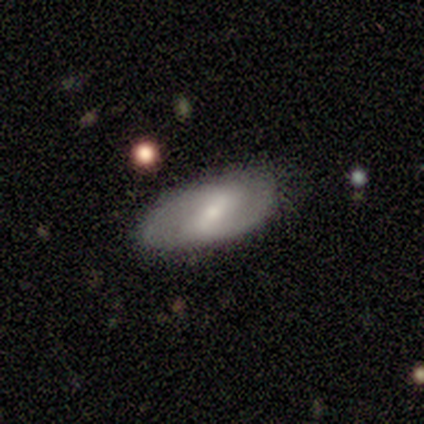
Volunteers were most divided on "spiral arms" (2-way tie): yes: 50%, no: 50%; "spiral arm count" (2-way tie): 2: 50%, can't tell: 50%, 1: 0%, 3: 0%, 4: 0%, more than 4: 0%; "bulge size" (2-way tie): moderate: 50%, small: 50%, dominant: 0%, large: 0%, none: 0%. More confident: smooth or featured — featured or disk (100%); spiral winding — medium (100%); edge-on disk — no (80%); bar — weak (75%); merging — none (60%).